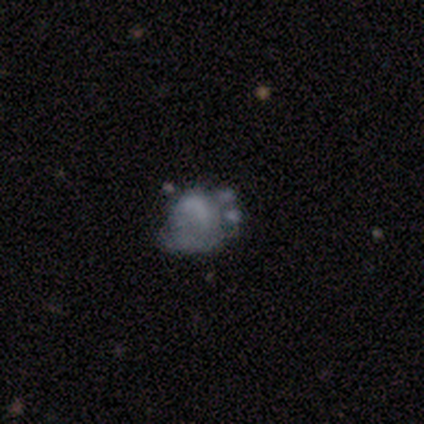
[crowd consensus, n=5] Smooth or featured: smooth — 40% (tied with featured or disk — 40%)
How rounded: round — 50% (tied with in between — 50%)
Merging: minor disturbance — 75% (major disturbance — 25%)